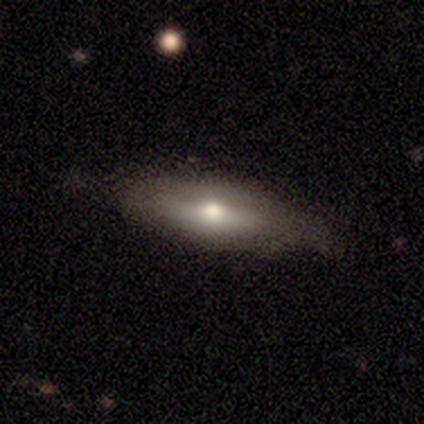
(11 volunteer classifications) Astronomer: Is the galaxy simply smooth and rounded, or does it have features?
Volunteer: smooth — 73%.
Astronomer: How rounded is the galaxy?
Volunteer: in between — 75%.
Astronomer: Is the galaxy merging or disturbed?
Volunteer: none — 73%.